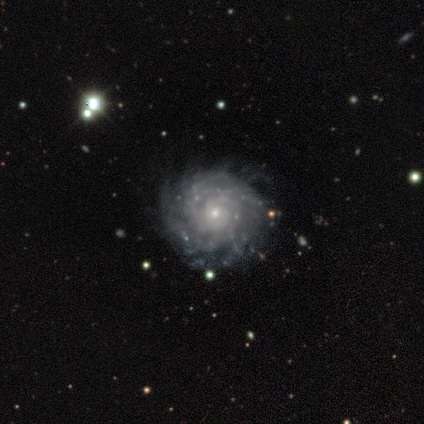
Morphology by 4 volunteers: Smooth or featured? featured or disk (75%)
Edge-on disk? no (100%)
Bar? no (67%)
Spiral arms? yes (100%)
Spiral winding? tight (100%)
Spiral arm count? can't tell (67%)
Bulge size? small (100%)
Merging? none (100%)